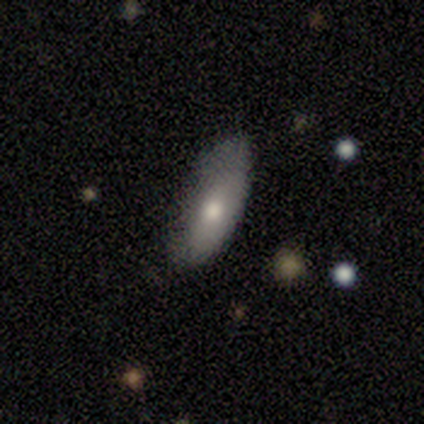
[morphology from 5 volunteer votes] smooth-or-featured: smooth: 100% | featured or disk: 0% | star or artifact: 0%
  how-rounded: in between: 80% | cigar-shaped: 20% | round: 0%
  merging: none: 80% | minor disturbance: 20% | major disturbance: 0% | merger: 0%